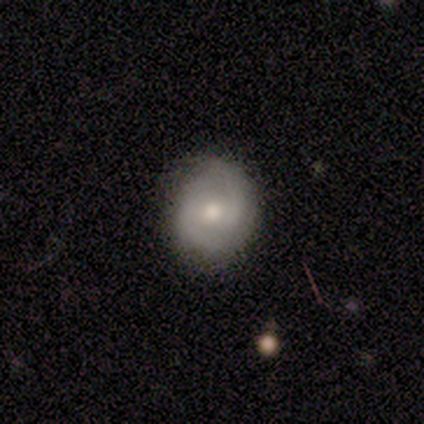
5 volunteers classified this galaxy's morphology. Volunteers were most divided on "bar": no: 50%, strong: 25%, weak: 25%. More confident: edge-on disk — no (100%); spiral arms — yes (100%); spiral arm count — 2 (100%); bulge size — moderate (100%); smooth or featured — featured or disk (80%); merging — none (80%); spiral winding — medium (75%).